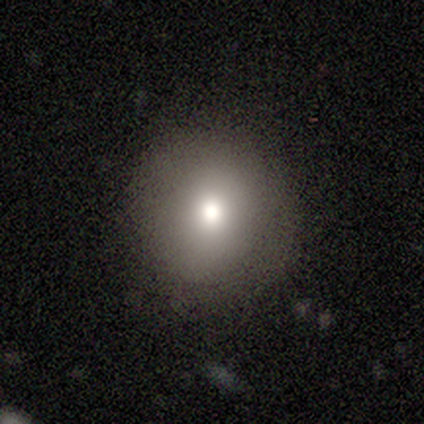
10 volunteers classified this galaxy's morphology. This is clearly a smooth galaxy (90%). How rounded: clearly round (89%). Merging: clearly none (80%).